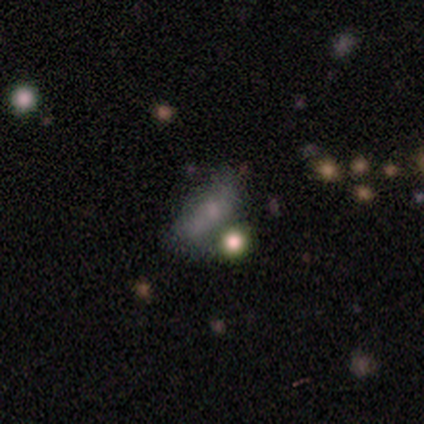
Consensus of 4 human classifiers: Smooth or featured? star or artifact (75%)